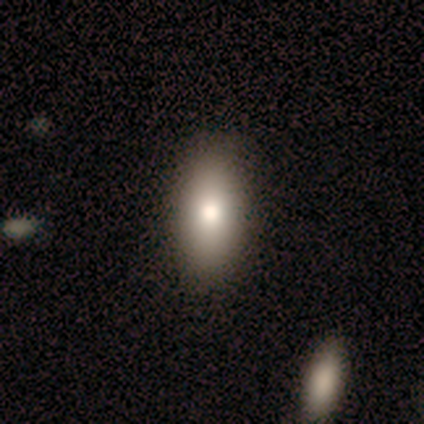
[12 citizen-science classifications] Smooth or featured? 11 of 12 (92%) said smooth. How rounded? 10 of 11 (91%) said in between. Merging? 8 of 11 (73%) said none.